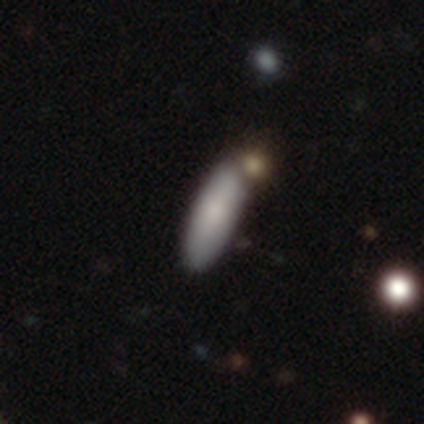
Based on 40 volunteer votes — This appears to be a smooth galaxy with no disk features (82%) that is in between round and cigar-shaped (58%). Merging: none (72%).